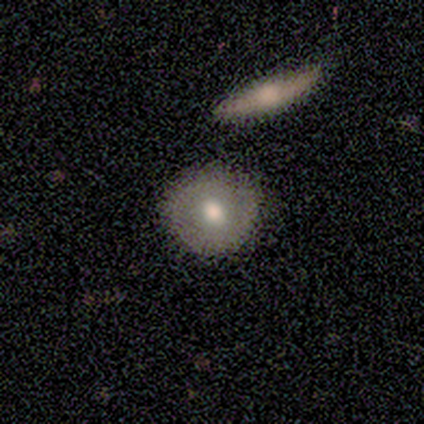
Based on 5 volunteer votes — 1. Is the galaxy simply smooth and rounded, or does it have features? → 60% featured or disk, 40% smooth, 0% star or artifact.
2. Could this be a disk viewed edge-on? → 100% no, 0% yes.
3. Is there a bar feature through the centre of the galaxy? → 100% no, 0% strong, 0% weak.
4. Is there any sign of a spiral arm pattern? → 100% no, 0% yes.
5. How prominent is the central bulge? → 67% moderate, 33% dominant, 0% large, 0% small, 0% none.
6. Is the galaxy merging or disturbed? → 100% none, 0% minor disturbance, 0% major disturbance, 0% merger.